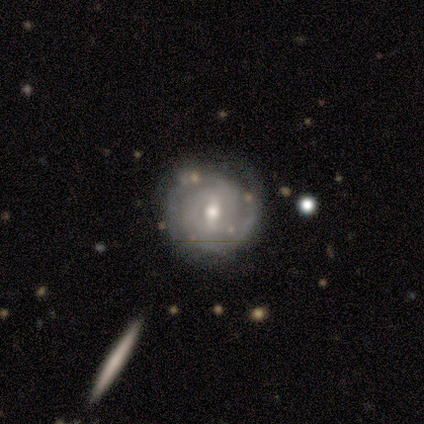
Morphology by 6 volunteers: Smooth or featured? featured or disk (67%)
Edge-on disk? yes (50%, tied with no)
Edge-on bulge? none (50%, tied with rounded)
Merging? none (40%, tied with major disturbance)